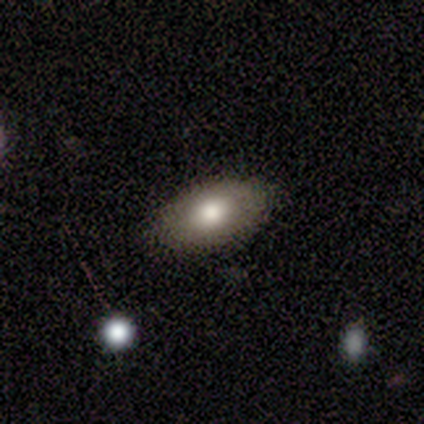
Smooth or featured? 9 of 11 (82%) said smooth. How rounded? 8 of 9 (89%) said in between. Merging? 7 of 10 (70%) said none.